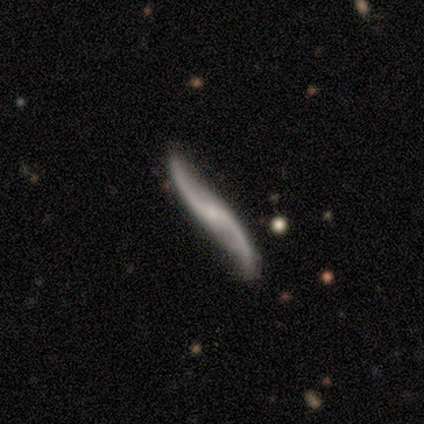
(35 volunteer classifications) A featured or disk galaxy (91%) with no bar (67%), 2 (100%) loose (100%) spiral arms (96%) and a small central bulge (46%).

Vote fractions:
- Smooth or featured? featured or disk: 91% / smooth: 9% / star or artifact: 0%
- Edge-on disk? no: 75% / yes: 25%
- Bar? no: 67% / weak: 29% / strong: 4%
- Spiral arms? yes: 96% / no: 4%
- Spiral winding? loose: 100% / tight: 0% / medium: 0%
- Spiral arm count? 2: 100% / 1: 0% / 3: 0% / 4: 0% / more than 4: 0% / can't tell: 0%
- Bulge size? small: 46% / none: 42% / moderate: 12% / dominant: 0% / large: 0%
- Merging? none: 83% / minor disturbance: 14% / major disturbance: 3% / merger: 0%